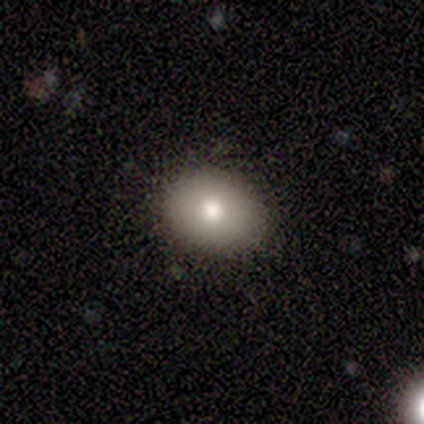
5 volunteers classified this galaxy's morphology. Q: Smooth or featured?
A: smooth (60%); runner-up: featured or disk (20%)
Q: How rounded?
A: in between (67%); runner-up: round (33%)
Q: Merging?
A: none (50%); runner-up: minor disturbance (25%)